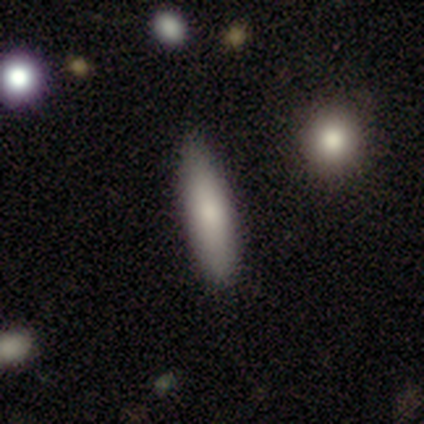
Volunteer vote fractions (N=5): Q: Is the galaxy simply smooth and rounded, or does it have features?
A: smooth — 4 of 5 (80%).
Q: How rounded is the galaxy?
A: cigar-shaped — 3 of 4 (75%).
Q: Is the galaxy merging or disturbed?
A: none — 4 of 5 (80%).